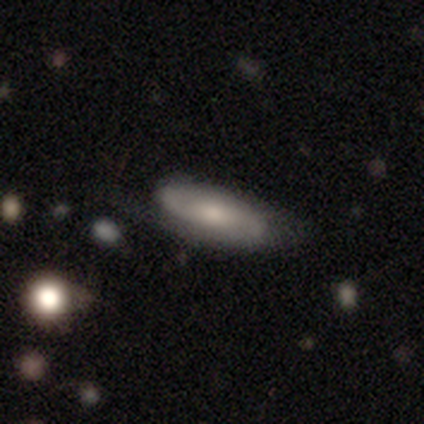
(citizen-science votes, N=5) featured or disk 60%, smooth 40%, star or artifact 0%. Down the decision tree: edge-on disk — no (100%); bar — no (67%); spiral arms — yes (67%); spiral arm count — 2 (100%); spiral winding — medium (50%, tied with loose); bulge size — moderate (100%); merging — none (80%).